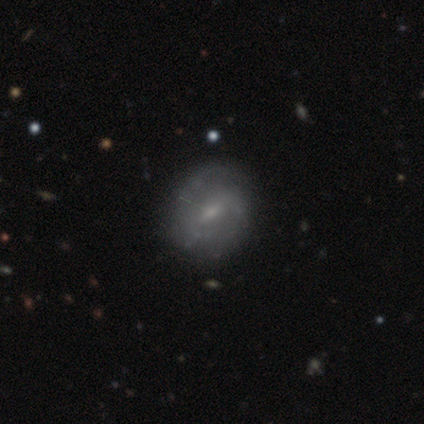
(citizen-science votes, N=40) featured or disk 57%, smooth 32%, star or artifact 10%. Down the decision tree: edge-on disk — no (83%); bar — weak (74%); spiral arms — yes (79%); spiral arm count — 2 (60%); spiral winding — medium (87%); bulge size — small (53%); merging — none (78%).